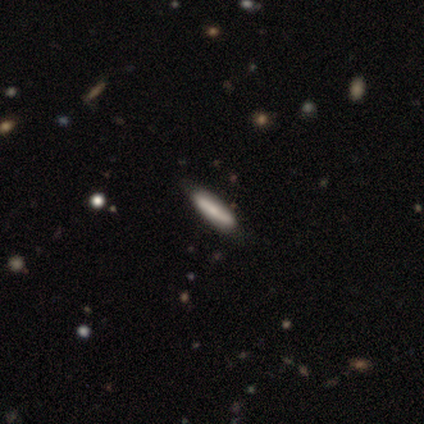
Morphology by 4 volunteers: This is likely a smooth galaxy (75%). How rounded: clearly cigar-shaped (100%). Merging: likely none (75%).